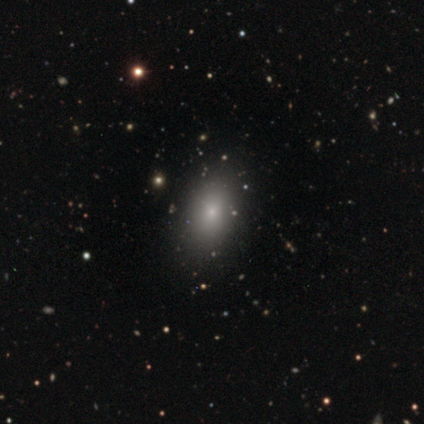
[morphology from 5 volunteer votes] A smooth galaxy with no disk features (80%) that is in between round and cigar-shaped (100%). Merging: none (100%).